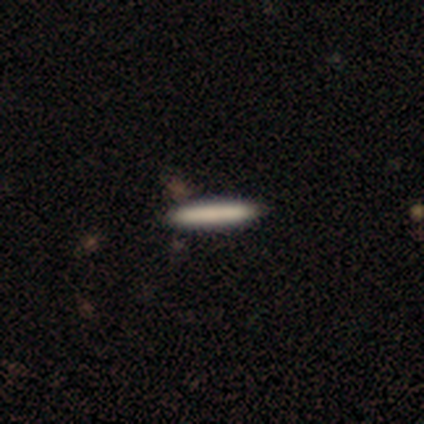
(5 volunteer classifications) This appears to be a smooth galaxy with no disk features (80%) that is cigar-shaped (100%). Merging: none (80%).